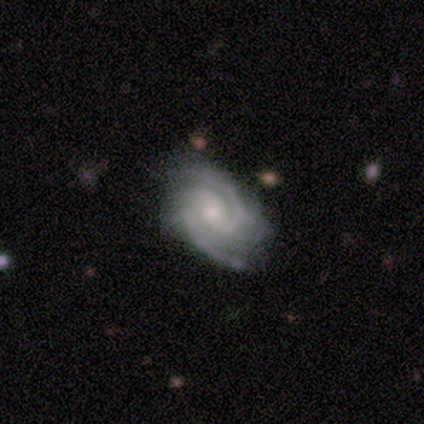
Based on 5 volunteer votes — Smooth or featured? featured or disk (100%)
Edge-on disk? no (100%)
Bar? no (100%)
Spiral arms? yes (100%)
Spiral winding? medium (60%)
Spiral arm count? 2 (60%)
Bulge size? small (60%)
Merging? minor disturbance (60%)